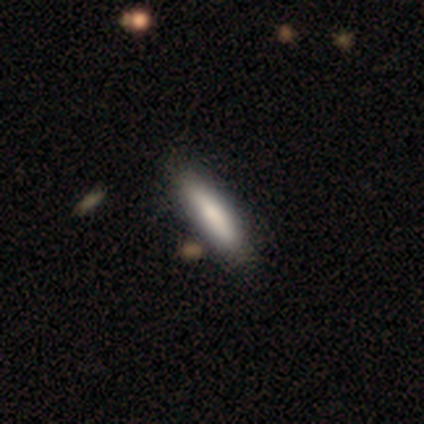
Smooth or featured? 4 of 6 (67%) said smooth. How rounded? 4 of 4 (100%) said cigar-shaped. Merging? 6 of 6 (100%) said none.